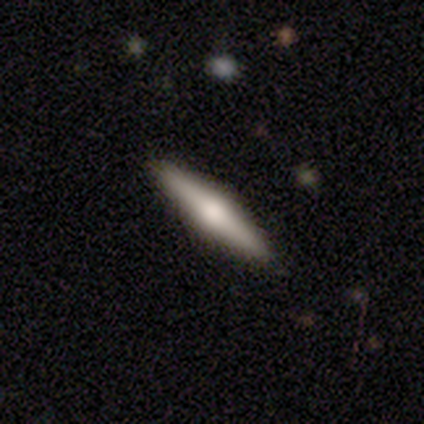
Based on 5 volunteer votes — smooth-or-featured: featured or disk: 60% | smooth: 40% | star or artifact: 0%
  disk-edge-on: yes: 100% | no: 0%
    edge-on-bulge: rounded: 100% | boxy: 0% | none: 0%
  merging: none: 100% | minor disturbance: 0% | major disturbance: 0% | merger: 0%